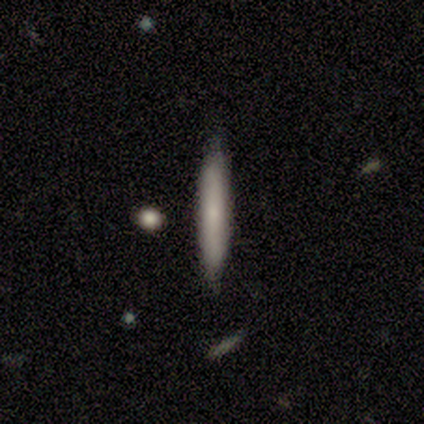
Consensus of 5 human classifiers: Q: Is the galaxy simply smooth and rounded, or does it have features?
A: smooth — 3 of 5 (60%).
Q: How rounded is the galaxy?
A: cigar-shaped — 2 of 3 (67%).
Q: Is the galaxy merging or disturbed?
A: none — 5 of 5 (100%).